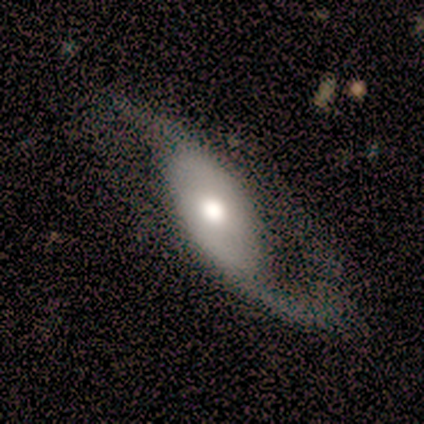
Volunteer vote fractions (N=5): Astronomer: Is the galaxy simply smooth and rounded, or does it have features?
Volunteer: featured or disk — 60%.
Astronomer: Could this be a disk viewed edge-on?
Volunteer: no — 100%.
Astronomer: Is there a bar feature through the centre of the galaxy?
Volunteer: no — 100%.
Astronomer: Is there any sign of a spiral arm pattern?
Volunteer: yes — 100%.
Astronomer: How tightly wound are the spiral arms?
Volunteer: tight — 33%, tied with medium and loose at 33%.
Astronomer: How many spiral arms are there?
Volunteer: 1 — 67%.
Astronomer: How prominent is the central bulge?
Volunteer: moderate — 67%.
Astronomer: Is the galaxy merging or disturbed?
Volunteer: none — 50%.